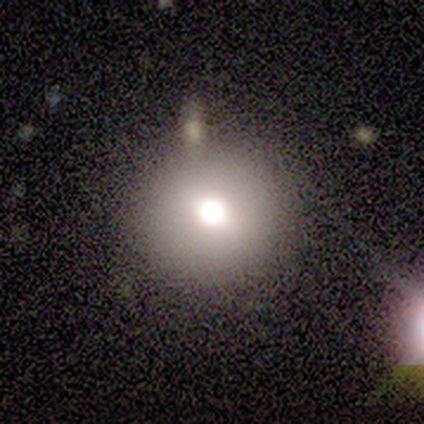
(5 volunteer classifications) A smooth galaxy with no disk features (80%) that is round (100%). Merging: none (100%).